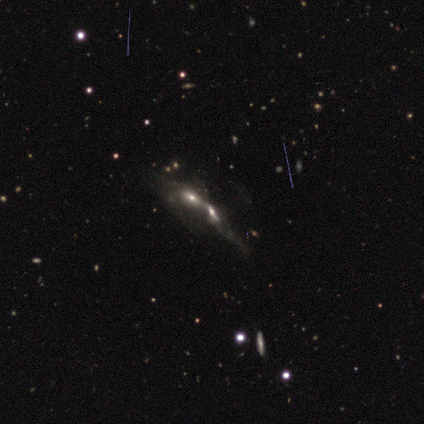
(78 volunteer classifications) Volunteers were most divided on "spiral arms": no: 55%, yes: 45%. Remaining: edge-on disk — no (76%); merging — merger (56%); bar — no (55%); smooth or featured — featured or disk (53%); bulge size — moderate (39%).